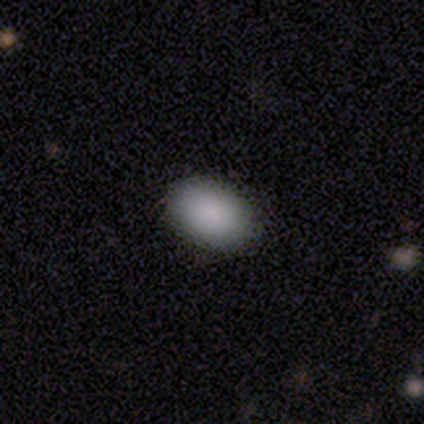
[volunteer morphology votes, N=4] smooth 75%, star or artifact 25%, featured or disk 0%. Down the decision tree: how rounded — in between (100%); merging — none (100%).